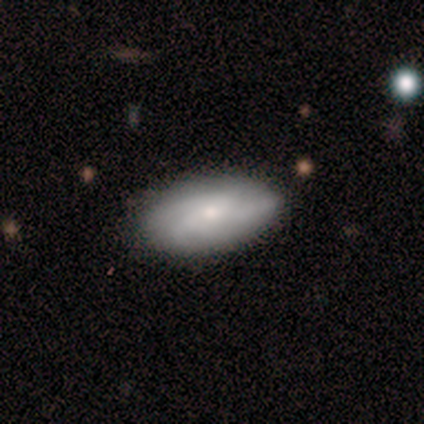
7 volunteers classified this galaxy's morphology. This is possibly a featured or disk galaxy (57%). It is likely not viewed edge-on (75%). Bar: clearly no (100%). Spiral arm pattern: likely yes (67%). Spiral arm count: possibly 4 (50%, tied with can't tell). Spiral winding: possibly medium (50%, tied with loose). Central bulge: likely small (67%). Merging: likely none (71%).